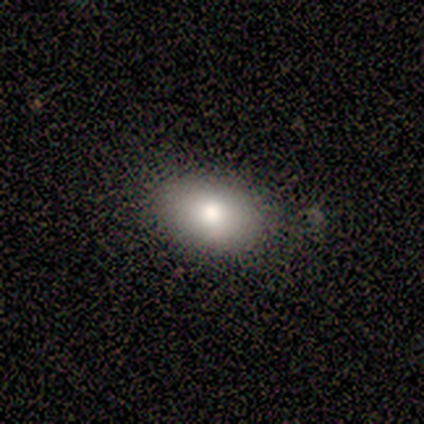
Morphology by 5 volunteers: smooth 100%, featured or disk 0%, star or artifact 0%. Down the decision tree: how rounded — in between (80%); merging — none (80%).